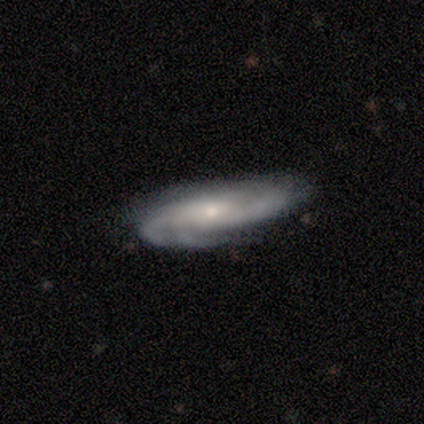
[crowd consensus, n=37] Overall: featured or disk (68%). Edge-on disk: no (76%). Bar: no (79%). Spiral arms: yes (89%). Spiral arm count: can't tell (53%; 2 24%). Spiral winding: medium (53%; tight 35%). Bulge size: small (63%; moderate 26%). Merging: none (66%; minor disturbance 31%).